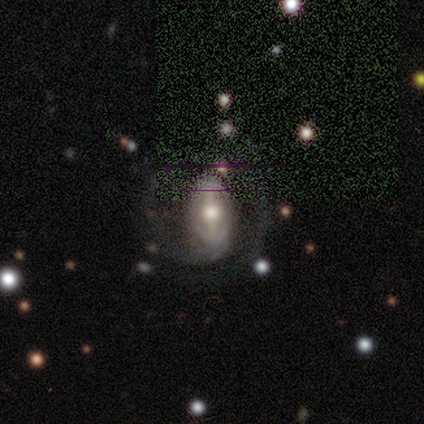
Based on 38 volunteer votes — Smooth or featured? featured or disk (95%)
Edge-on disk? no (97%)
Bar? strong (57%)
Spiral arms? yes (80%)
Spiral winding? medium (46%)
Spiral arm count? 2 (64%)
Bulge size? moderate (69%)
Merging? none (50%)